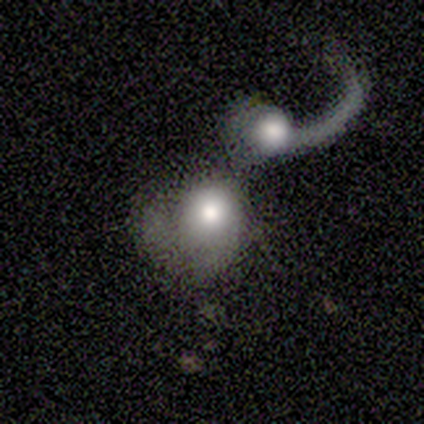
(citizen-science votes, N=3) This appears to be a featured or disk galaxy (67%) with a weak bar (50%, tied with no), 1 (100%) loose (100%) spiral arms (100%) and a large central bulge (50%, tied with moderate). Merging: minor disturbance (67%).